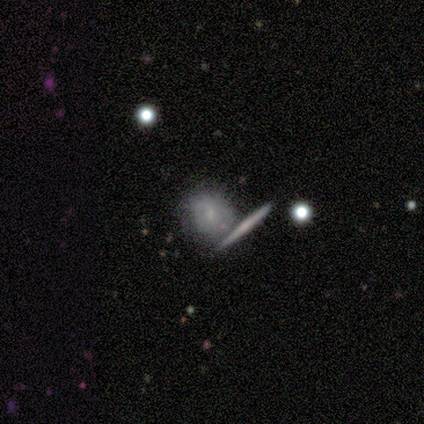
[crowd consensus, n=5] This is likely a featured or disk galaxy (60%). It is likely viewed edge-on (67%). Edge-on bulge: possibly none (50%, tied with rounded). Merging: likely merger (60%).